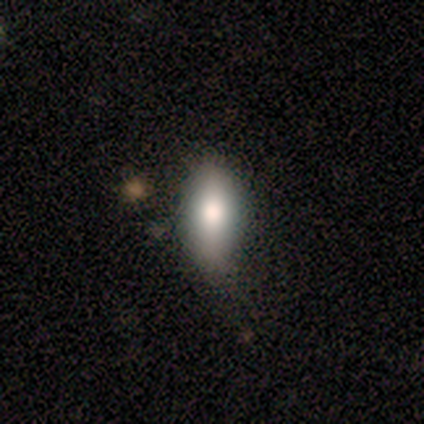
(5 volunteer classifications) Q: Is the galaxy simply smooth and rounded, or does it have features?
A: smooth — 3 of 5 (60%).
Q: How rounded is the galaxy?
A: in between — 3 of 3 (100%).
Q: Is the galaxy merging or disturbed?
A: none — 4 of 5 (80%).